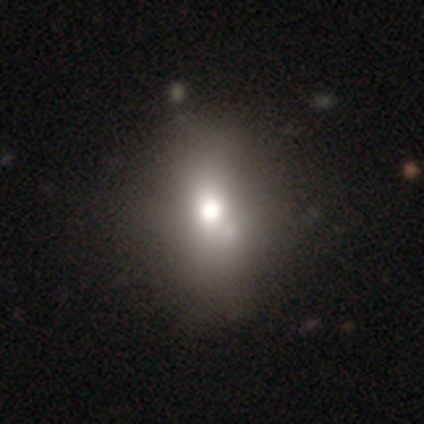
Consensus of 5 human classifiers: Volunteers were most divided on "smooth or featured": smooth: 80%, star or artifact: 20%, featured or disk: 0%. More confident: how rounded — in between (100%); merging — none (100%).